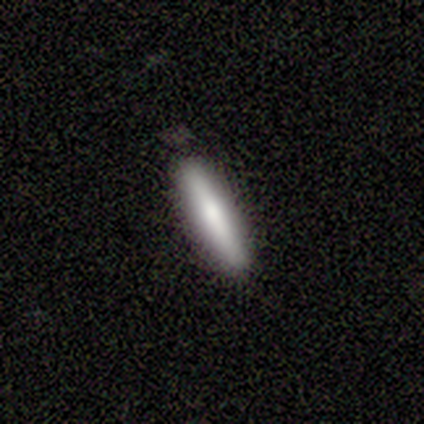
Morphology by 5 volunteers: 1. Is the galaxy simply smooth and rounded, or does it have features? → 100% smooth, 0% featured or disk, 0% star or artifact.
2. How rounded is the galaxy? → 100% cigar-shaped, 0% round, 0% in between.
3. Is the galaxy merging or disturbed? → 100% none, 0% minor disturbance, 0% major disturbance, 0% merger.